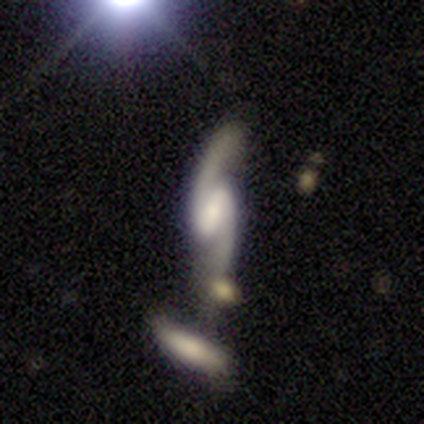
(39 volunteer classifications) Smooth or featured?
  - featured or disk: 95% *
  - smooth: 3%
  - star or artifact: 3%
Edge-on disk?
  - no: 100% *
  - yes: 0%
Bar?
  - strong: 41% *
  - weak: 38%
  - no: 22%
Spiral arms?
  - yes: 100% *
  - no: 0%
Spiral winding?
  - loose: 65% *
  - medium: 24%
  - tight: 11%
Spiral arm count?
  - 2: 97% *
  - can't tell: 3%
  - 1: 0%
  - 3: 0%
  - 4: 0%
  - more than 4: 0%
Bulge size?
  - small: 41% *
  - moderate: 30%
  - none: 22%
  - large: 8%
  - dominant: 0%
Merging?
  - none: 55% *
  - merger: 26%
  - minor disturbance: 18%
  - major disturbance: 0%